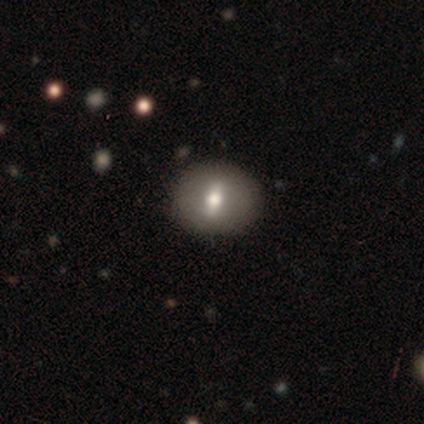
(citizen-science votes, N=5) A smooth galaxy with no disk features (80%) that is round (50%, tied with in between). Merging: none (75%).